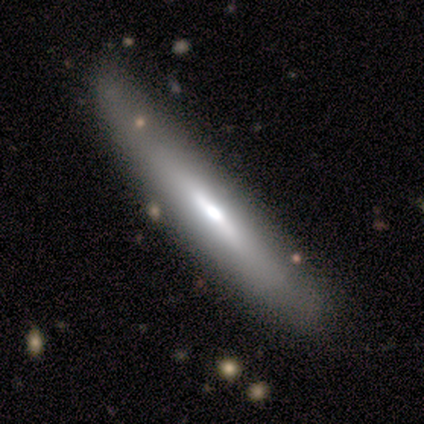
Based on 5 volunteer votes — smooth-or-featured: featured or disk: 60% | smooth: 40% | star or artifact: 0%
  disk-edge-on: yes: 67% | no: 33%
    edge-on-bulge: boxy: 50% (tied) | rounded: 50% (tied) | none: 0%
  merging: none: 100% | minor disturbance: 0% | major disturbance: 0% | merger: 0%